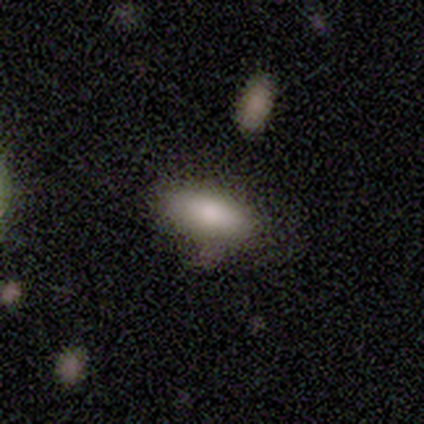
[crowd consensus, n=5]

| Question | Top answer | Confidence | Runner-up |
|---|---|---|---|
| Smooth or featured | smooth | 80% | featured or disk (20%) |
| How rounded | in between | 75% | cigar-shaped (25%) |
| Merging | none | 100% | — |